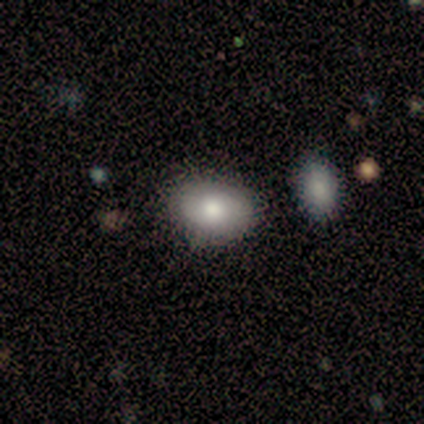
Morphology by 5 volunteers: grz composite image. It shows a smooth galaxy with no disk features (100%) that is in between round and cigar-shaped (100%). Merging: none (100%).